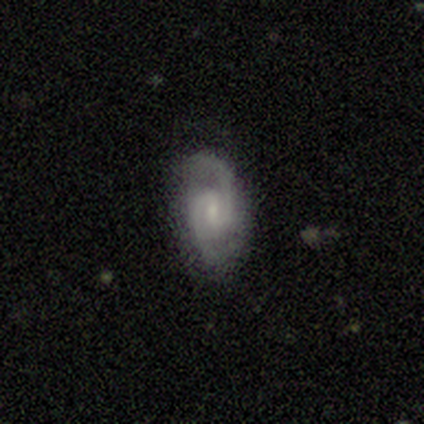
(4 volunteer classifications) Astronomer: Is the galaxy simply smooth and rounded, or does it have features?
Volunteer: featured or disk — 100%.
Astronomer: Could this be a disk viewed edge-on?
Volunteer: no — 100%.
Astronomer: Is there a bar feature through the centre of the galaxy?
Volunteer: weak — 75%.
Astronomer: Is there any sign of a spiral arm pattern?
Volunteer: yes — 100%.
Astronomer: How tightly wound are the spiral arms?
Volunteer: medium — 50%.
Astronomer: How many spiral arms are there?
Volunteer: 2 — 100%.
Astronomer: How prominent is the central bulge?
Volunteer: small — 75%.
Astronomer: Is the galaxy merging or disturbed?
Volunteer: none — 100%.